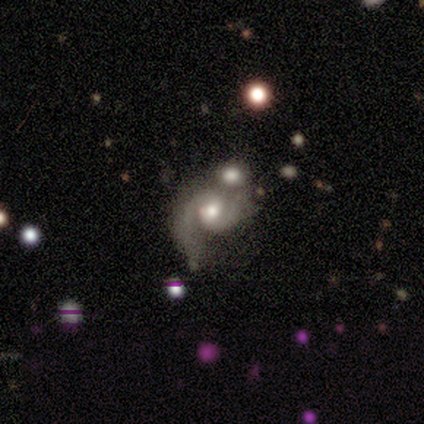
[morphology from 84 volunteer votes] Smooth or featured? featured or disk (87%)
Edge-on disk? no (99%)
Bar? no (71%)
Spiral arms? yes (97%)
Spiral winding? medium (57%)
Spiral arm count? 2 (84%)
Bulge size? moderate (68%)
Merging? merger (44%)